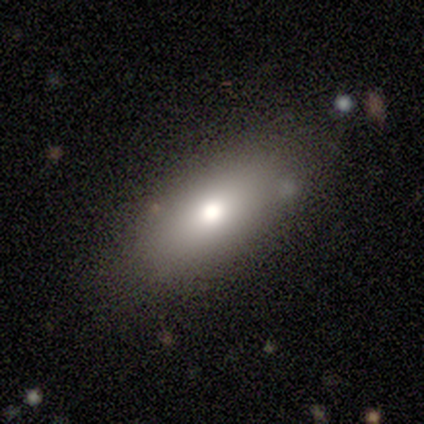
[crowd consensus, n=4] Morphology: type=smooth (100%); roundness=in between (100%); merging=none (100%).